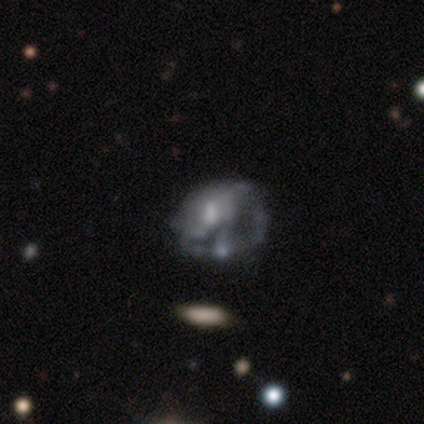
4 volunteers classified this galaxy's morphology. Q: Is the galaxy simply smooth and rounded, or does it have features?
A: smooth — 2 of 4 (50%, tied with featured or disk).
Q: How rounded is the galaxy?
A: round — 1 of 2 (50%, tied with in between).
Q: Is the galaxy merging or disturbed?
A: major disturbance — 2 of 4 (50%).